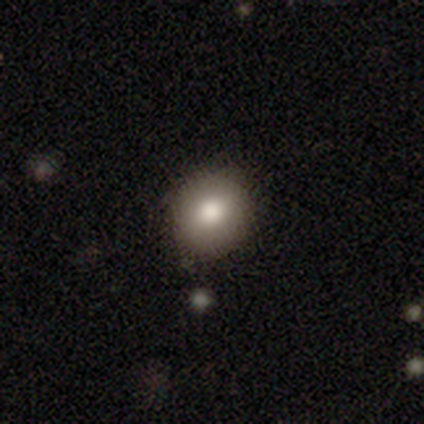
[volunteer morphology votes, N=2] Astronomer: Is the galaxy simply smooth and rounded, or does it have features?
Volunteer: smooth — 100%.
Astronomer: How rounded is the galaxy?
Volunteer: round — 100%.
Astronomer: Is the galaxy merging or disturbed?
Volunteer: none — 50%, tied with minor disturbance at 50%.